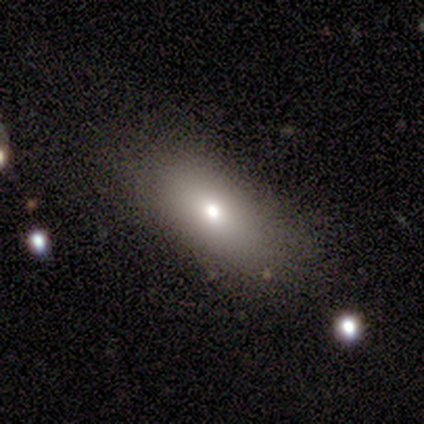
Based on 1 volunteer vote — Q: Smooth or featured?
A: smooth (100%)
Q: How rounded?
A: cigar-shaped (100%)
Q: Merging?
A: none (100%)